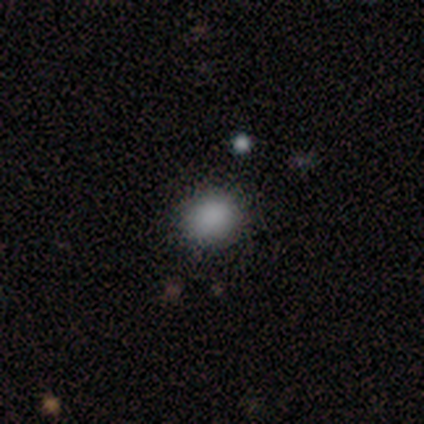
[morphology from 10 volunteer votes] Volunteers were most divided on "how rounded": round: 75%, in between: 25%, cigar-shaped: 0%. More confident: merging — none (89%); smooth or featured — smooth (80%).